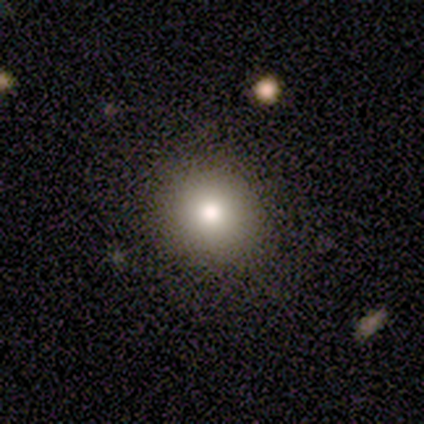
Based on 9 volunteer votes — A smooth galaxy with no disk features (89%) that is round (88%).

Vote fractions:
- Smooth or featured? smooth: 89% / star or artifact: 11% / featured or disk: 0%
- How rounded? round: 88% / in between: 12% / cigar-shaped: 0%
- Merging? none: 100% / minor disturbance: 0% / major disturbance: 0% / merger: 0%